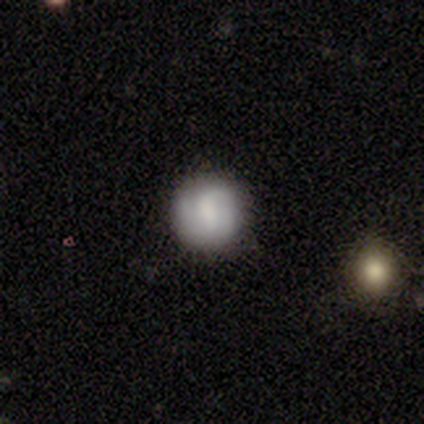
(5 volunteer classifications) A smooth galaxy with no disk features (60%) that is round (100%).

Vote fractions:
- Smooth or featured? smooth: 60% / featured or disk: 40% / star or artifact: 0%
- How rounded? round: 100% / in between: 0% / cigar-shaped: 0%
- Merging? none: 100% / minor disturbance: 0% / major disturbance: 0% / merger: 0%